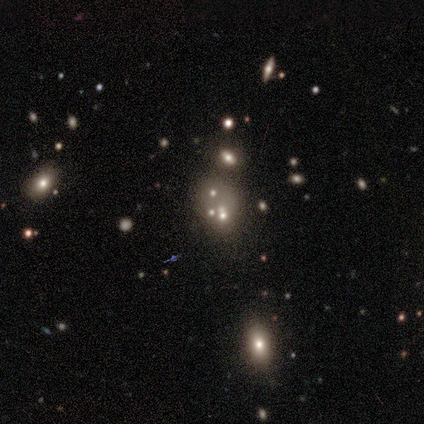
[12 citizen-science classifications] Smooth or featured?
  - smooth: 67% *
  - star or artifact: 25%
  - featured or disk: 8%
How rounded?
  - in between: 88% *
  - round: 12%
  - cigar-shaped: 0%
Merging?
  - none: 33% * (tied)
  - merger: 33% * (tied)
  - minor disturbance: 22%
  - major disturbance: 11%